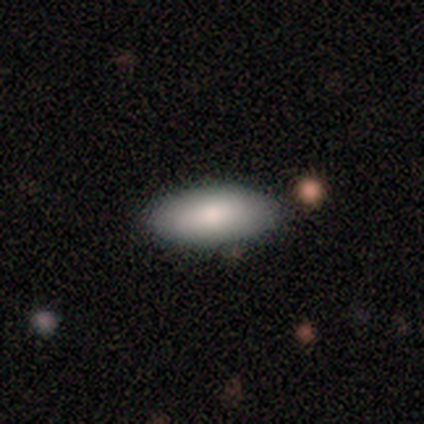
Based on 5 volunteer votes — Overall: smooth (60%; featured or disk 40%). How rounded: in between (100%). Merging: none (100%).